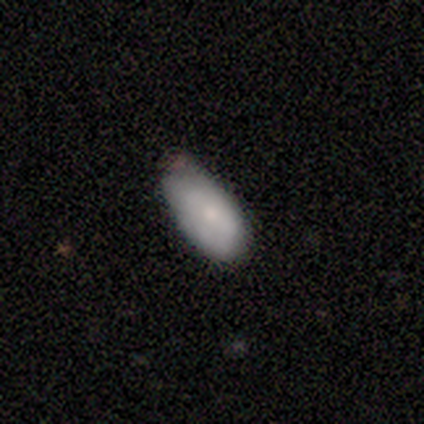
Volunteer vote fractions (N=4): Smooth or featured? smooth (75%)
How rounded? in between (100%)
Merging? minor disturbance (50%)